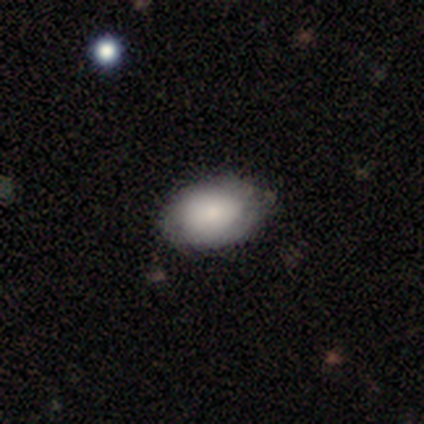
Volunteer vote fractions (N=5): smooth-or-featured: smooth: 80% | featured or disk: 20% | star or artifact: 0%
  how-rounded: in between: 100% | round: 0% | cigar-shaped: 0%
  merging: none: 80% | minor disturbance: 20% | major disturbance: 0% | merger: 0%